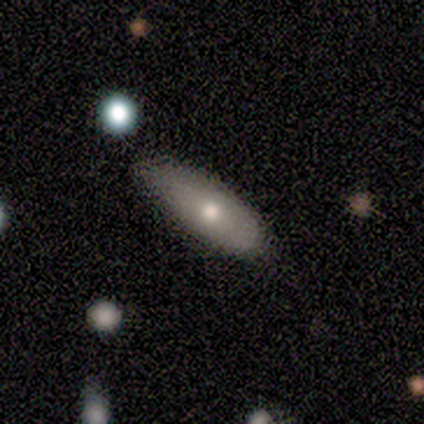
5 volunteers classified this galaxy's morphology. A smooth galaxy with no disk features (60%) that is in between round and cigar-shaped (67%). Merging: none (60%).